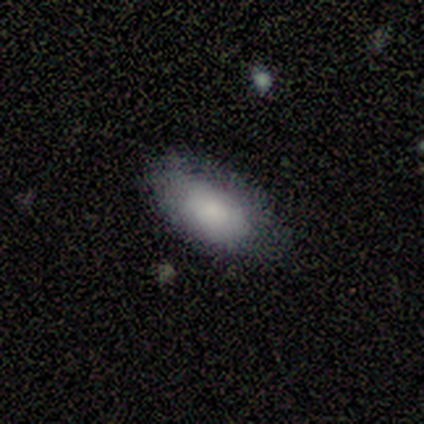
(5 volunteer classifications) Morphology: type=smooth (80%); roundness=in between (100%); merging=none (60%).